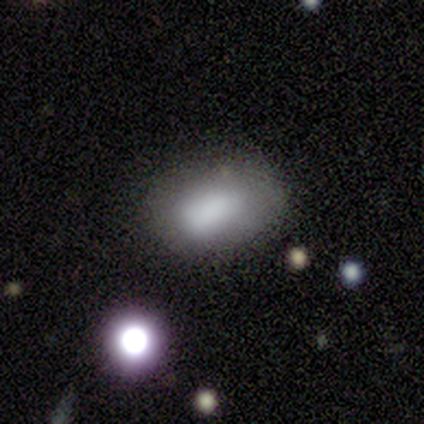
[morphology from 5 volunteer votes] A smooth galaxy with no disk features (80%) that is in between round and cigar-shaped (100%). Merging: none (80%).